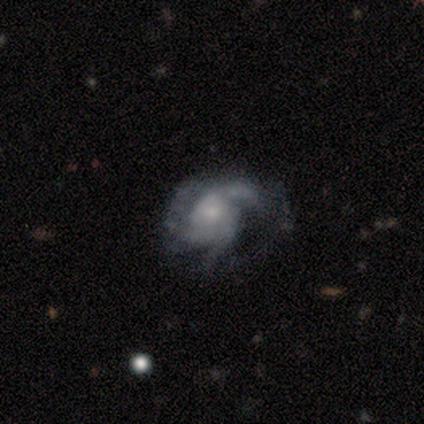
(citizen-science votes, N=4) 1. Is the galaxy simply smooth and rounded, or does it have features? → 50% featured or disk, 25% smooth, 25% star or artifact.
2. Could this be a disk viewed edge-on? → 100% no, 0% yes.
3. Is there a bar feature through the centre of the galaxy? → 50% weak (tied), 50% no (tied), 0% strong.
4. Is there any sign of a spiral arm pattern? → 100% yes, 0% no.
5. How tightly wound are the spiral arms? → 100% tight, 0% medium, 0% loose.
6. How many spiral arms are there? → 50% 2 (tied), 50% 3 (tied), 0% 1, 0% 4, 0% more than 4, 0% can't tell.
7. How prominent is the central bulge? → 50% dominant (tied), 50% none (tied), 0% large, 0% moderate, 0% small.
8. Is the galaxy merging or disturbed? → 33% none (tied), 33% minor disturbance (tied), 33% major disturbance (tied), 0% merger.